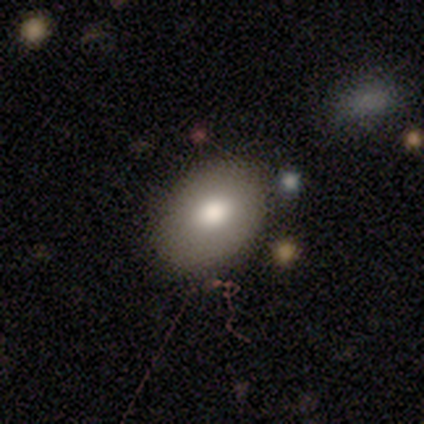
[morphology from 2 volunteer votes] This appears to be a smooth galaxy with no disk features (50%, tied with featured or disk) that is in between round and cigar-shaped (100%). Merging: none (50%, tied with minor disturbance).